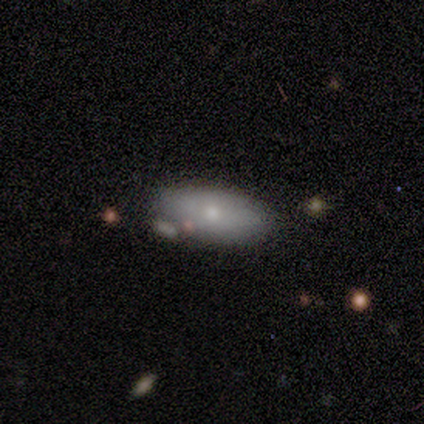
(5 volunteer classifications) Smooth or featured?
  - featured or disk: 60% *
  - smooth: 40%
  - star or artifact: 0%
Edge-on disk?
  - no: 100% *
  - yes: 0%
Bar?
  - no: 100% *
  - strong: 0%
  - weak: 0%
Spiral arms?
  - no: 100% *
  - yes: 0%
Bulge size?
  - moderate: 67% *
  - small: 33%
  - dominant: 0%
  - large: 0%
  - none: 0%
Merging?
  - none: 80% *
  - merger: 20%
  - minor disturbance: 0%
  - major disturbance: 0%